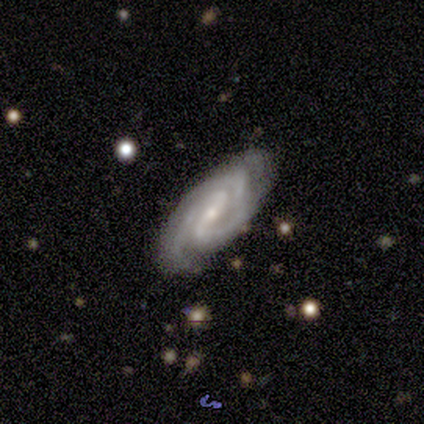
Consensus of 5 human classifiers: smooth_or_featured: featured or disk (p=1.00)
disk_edge_on: no (p=1.00)
bar: strong (p=0.60) [alt: weak p=0.20]
has_spiral_arms: yes (p=1.00)
spiral_winding: tight (p=0.60) [alt: medium p=0.40]
spiral_arm_count: 2 (p=0.60) [alt: 3 p=0.40]
bulge_size: small (p=0.60) [alt: moderate p=0.40]
merging: none (p=0.80) [alt: minor disturbance p=0.20]